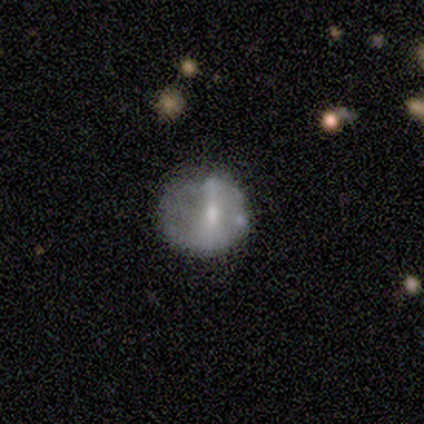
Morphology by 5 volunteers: Smooth or featured? featured or disk (60%)
Edge-on disk? no (100%)
Bar? strong (67%)
Spiral arms? no (67%)
Bulge size? small (67%)
Merging? none (100%)